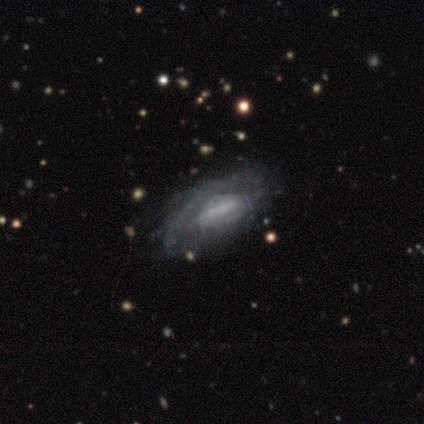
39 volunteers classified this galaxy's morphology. Volunteers were most divided on "bar": weak: 45%, no: 41%, strong: 14%. More confident: edge-on disk — no (92%); bulge size — none (77%); spiral arms — no (64%); smooth or featured — featured or disk (62%); merging — none (57%).